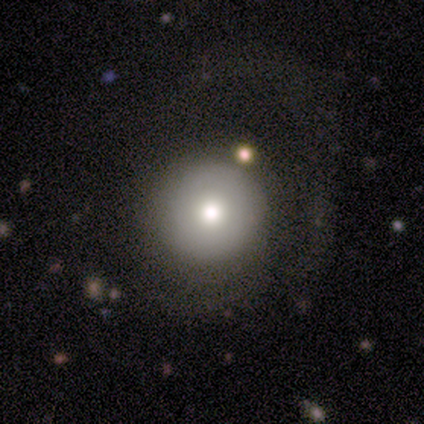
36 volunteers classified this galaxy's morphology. Volunteers were most divided on "smooth or featured": smooth: 75%, featured or disk: 17%, star or artifact: 8%. More confident: how rounded — round (96%); merging — none (73%).